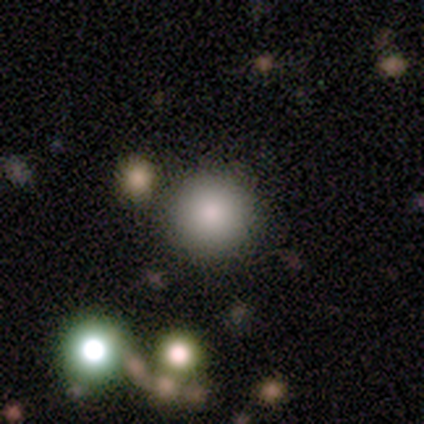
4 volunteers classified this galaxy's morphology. smooth_or_featured: smooth (p=1.00)
how_rounded: round (p=1.00)
merging: none (p=0.75) [alt: major disturbance p=0.25]